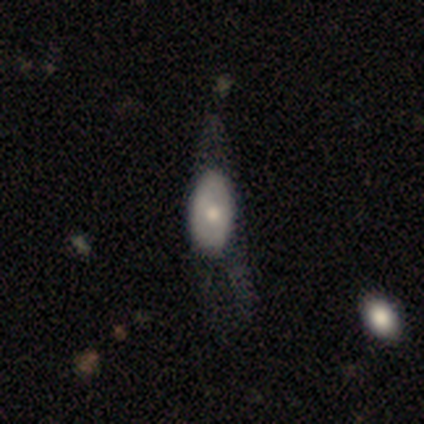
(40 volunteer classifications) A smooth galaxy with no disk features (50%, tied with featured or disk) that is in between round and cigar-shaped (95%). Merging: major disturbance (60%).